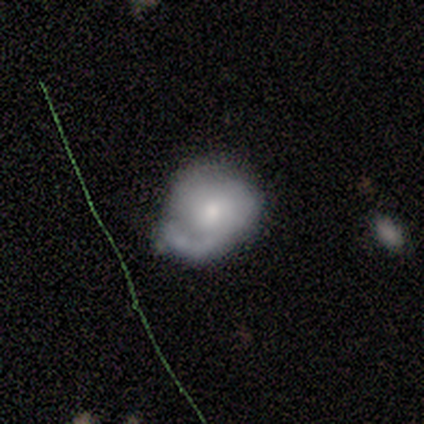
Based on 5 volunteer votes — Q: Smooth or featured?
A: featured or disk (80%); runner-up: smooth (20%)
Q: Edge-on disk?
A: no (100%)
Q: Bar?
A: no (75%); runner-up: weak (25%)
Q: Spiral arms?
A: yes (75%); runner-up: no (25%)
Q: Spiral winding?
A: medium (67%); runner-up: loose (33%)
Q: Spiral arm count?
A: 1 (67%); runner-up: can't tell (33%)
Q: Bulge size?
A: moderate (50%); tied with: small (50%)
Q: Merging?
A: none (40%); tied with: major disturbance (40%)